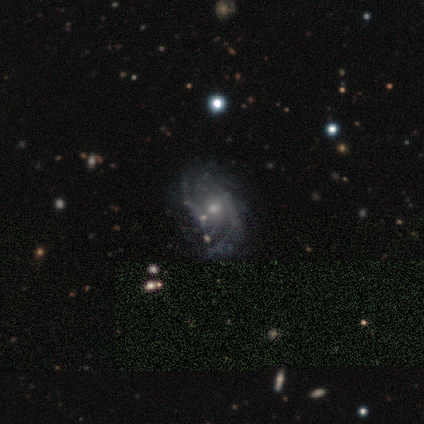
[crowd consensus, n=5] Q: Smooth or featured?
A: featured or disk (80%); runner-up: star or artifact (20%)
Q: Edge-on disk?
A: no (100%)
Q: Bar?
A: no (75%); runner-up: weak (25%)
Q: Spiral arms?
A: yes (100%)
Q: Spiral winding?
A: medium (75%); runner-up: tight (25%)
Q: Spiral arm count?
A: can't tell (50%); runner-up: 2 (25%)
Q: Bulge size?
A: moderate (50%); tied with: small (50%)
Q: Merging?
A: none (75%); runner-up: minor disturbance (25%)